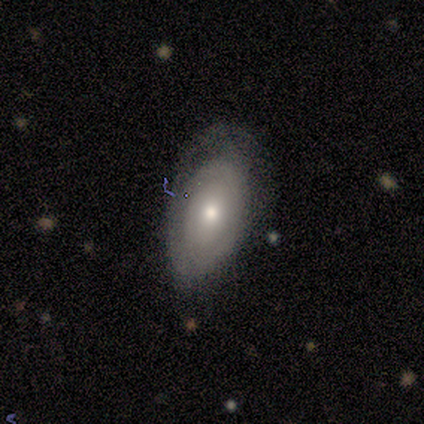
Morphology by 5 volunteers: Smooth or featured? featured or disk (60%)
Edge-on disk? no (100%)
Bar? no (67%)
Spiral arms? no (67%)
Bulge size? moderate (67%)
Merging? minor disturbance (75%)